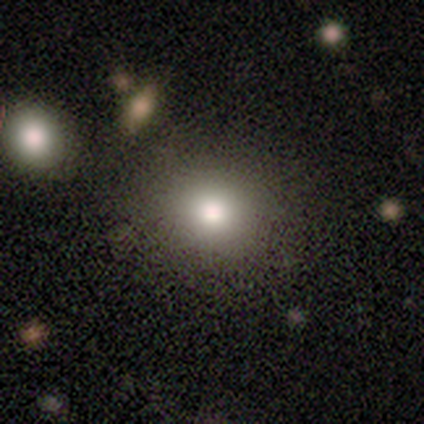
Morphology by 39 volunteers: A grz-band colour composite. It shows a smooth galaxy with no disk features (85%) that is round (88%). Merging: none (59%).